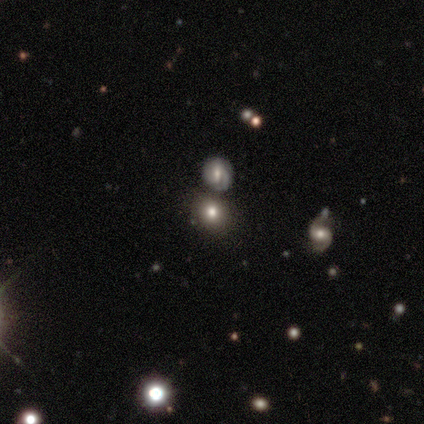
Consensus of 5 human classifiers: A smooth galaxy with no disk features (80%) that is round (100%). Merging: none (75%).